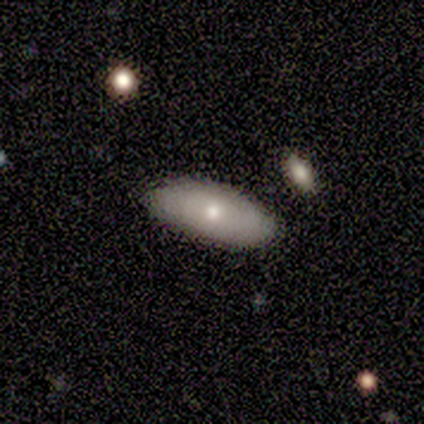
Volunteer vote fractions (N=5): Smooth or featured? smooth (60%)
How rounded? in between (100%)
Merging? none (60%)